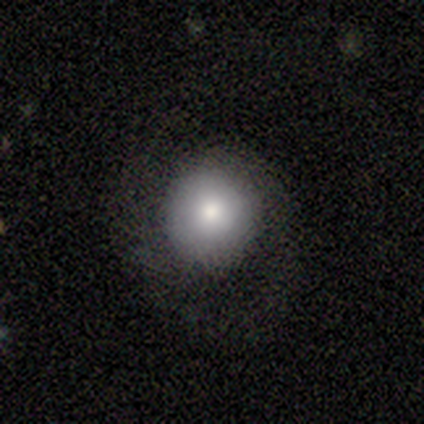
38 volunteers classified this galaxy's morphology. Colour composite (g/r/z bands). It shows a smooth galaxy with no disk features (82%) that is round (94%). Merging: none (61%).